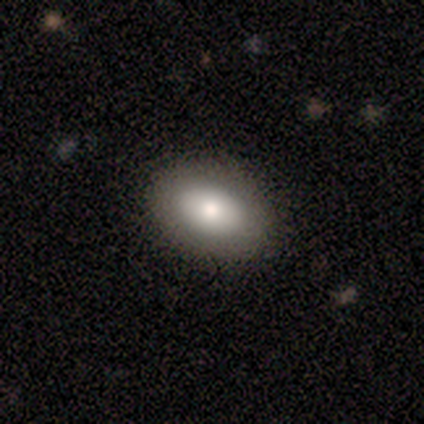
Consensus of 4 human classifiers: Smooth or featured? smooth (50%)
How rounded? in between (100%)
Merging? none (100%)